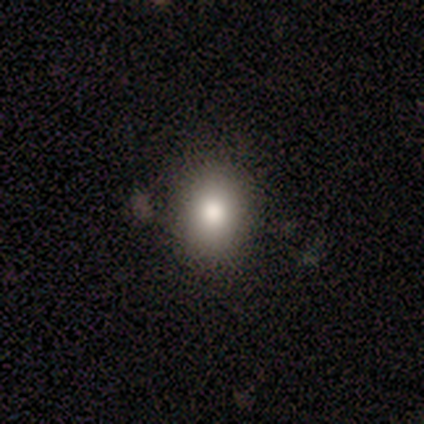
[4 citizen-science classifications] Overall: smooth (100%). How rounded: round (50%, tied with in between). Merging: none (100%).